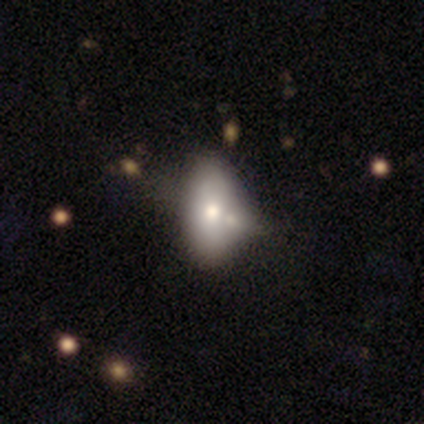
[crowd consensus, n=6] Smooth or featured: smooth — 67% (featured or disk — 33%)
How rounded: in between — 100%
Merging: minor disturbance — 50% (none — 33%)